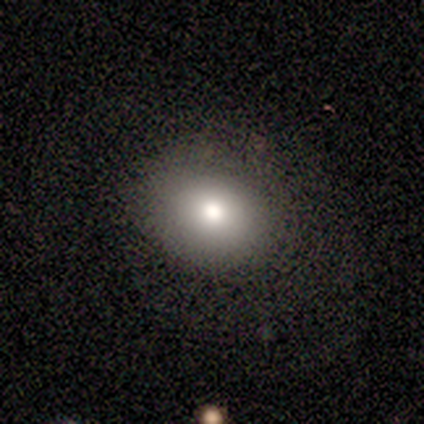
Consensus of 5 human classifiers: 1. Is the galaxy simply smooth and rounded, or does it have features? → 100% smooth, 0% featured or disk, 0% star or artifact.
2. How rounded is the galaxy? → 80% round, 20% in between, 0% cigar-shaped.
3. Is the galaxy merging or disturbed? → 60% none, 20% minor disturbance, 20% major disturbance, 0% merger.